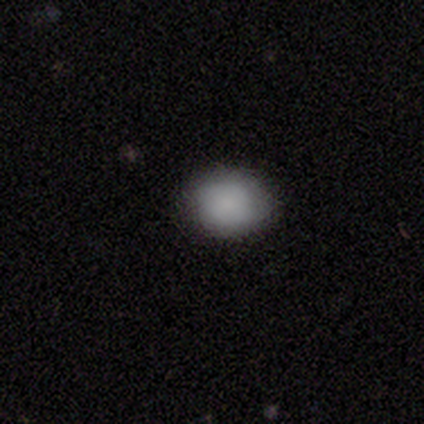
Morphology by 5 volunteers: Smooth or featured? smooth (80%)
How rounded? round (50%, tied with in between)
Merging? none (75%)